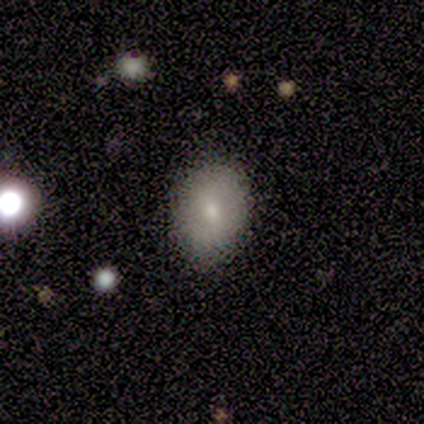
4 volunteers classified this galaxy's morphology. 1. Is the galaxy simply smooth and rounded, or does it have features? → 75% smooth, 25% featured or disk, 0% star or artifact.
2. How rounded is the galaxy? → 100% in between, 0% round, 0% cigar-shaped.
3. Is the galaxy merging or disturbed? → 100% none, 0% minor disturbance, 0% major disturbance, 0% merger.